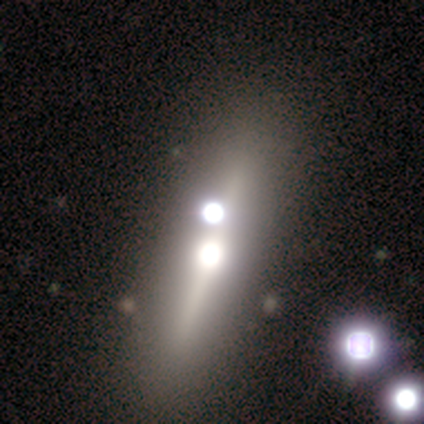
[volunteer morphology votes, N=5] Smooth or featured? 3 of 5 (60%) said featured or disk. Edge-on disk? 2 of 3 (67%) said yes. Edge-on bulge? 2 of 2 (100%) said rounded. Merging? 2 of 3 (67%) said none.